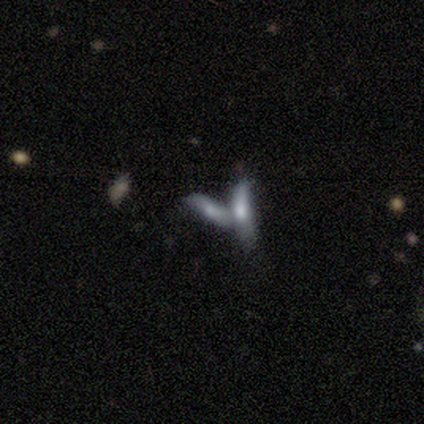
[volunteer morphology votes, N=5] smooth_or_featured: smooth (p=1.00)
how_rounded: cigar-shaped (p=0.60) [alt: in between p=0.40]
merging: merger (p=1.00)